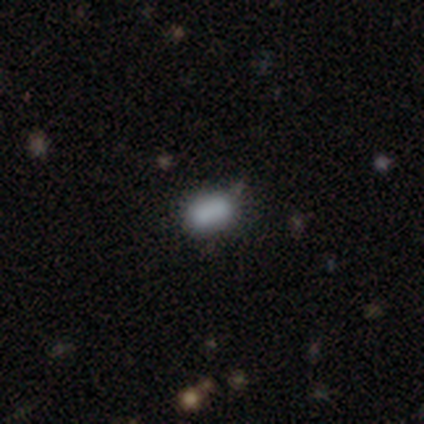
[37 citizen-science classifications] Volunteers were most divided on "merging": none: 66%, minor disturbance: 26%, merger: 9%, major disturbance: 0%. More confident: smooth or featured — smooth (70%); how rounded — in between (69%).